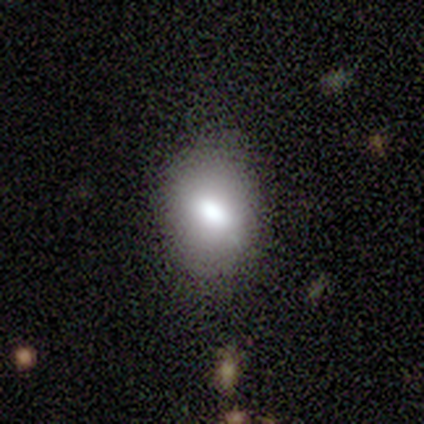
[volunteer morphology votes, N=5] This appears to be a smooth galaxy with no disk features (100%) that is in between round and cigar-shaped (100%). Merging: none (80%).